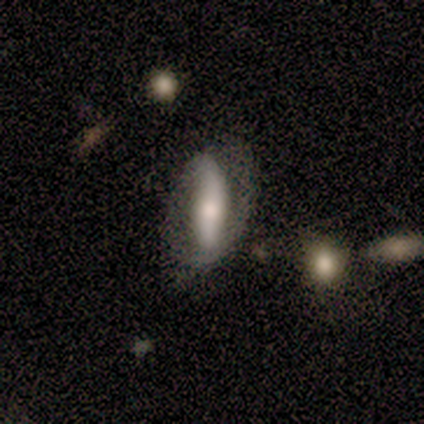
Overall: featured or disk (60%; smooth 40%). Edge-on disk: no (67%; yes 33%). Bar: no (100%). Spiral arms: yes (100%). Spiral arm count: 2 (100%). Spiral winding: loose (100%). Bulge size: moderate (100%). Merging: none (80%).